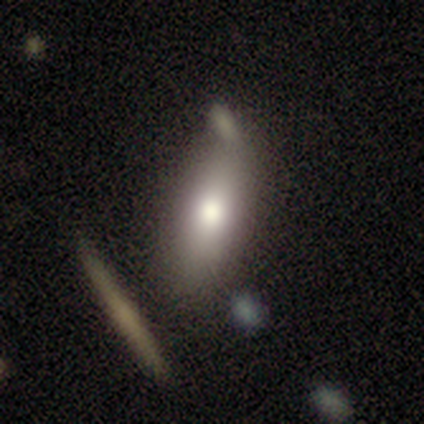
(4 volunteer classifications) Volunteers were most divided on "how rounded": in between: 75%, cigar-shaped: 25%, round: 0%. More confident: smooth or featured — smooth (100%); merging — none (75%).